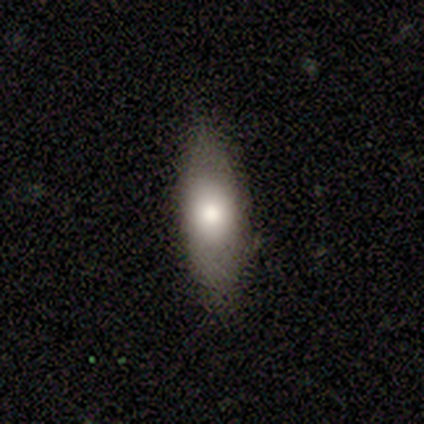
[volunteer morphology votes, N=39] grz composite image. It shows a smooth galaxy with no disk features (77%) that is in between round and cigar-shaped (87%). Merging: none (76%).